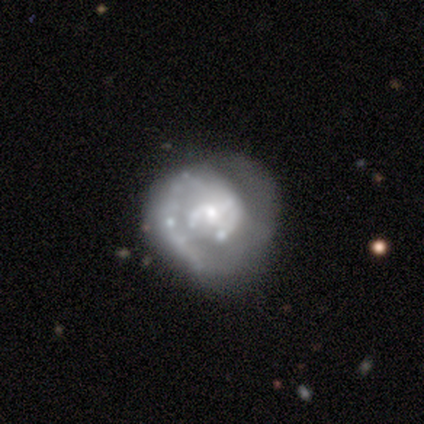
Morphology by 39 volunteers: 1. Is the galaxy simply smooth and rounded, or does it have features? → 87% featured or disk, 8% smooth, 5% star or artifact.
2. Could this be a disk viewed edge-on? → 82% no, 18% yes.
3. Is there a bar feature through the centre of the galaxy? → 50% no, 32% weak, 18% strong.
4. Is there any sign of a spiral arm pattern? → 82% yes, 18% no.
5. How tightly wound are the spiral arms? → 43% medium, 39% tight, 17% loose.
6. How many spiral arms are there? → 43% 1, 30% 2, 26% can't tell, 0% 3, 0% 4, 0% more than 4.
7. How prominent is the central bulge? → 57% small, 39% moderate, 4% large, 0% dominant, 0% none.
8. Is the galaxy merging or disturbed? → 59% none, 19% major disturbance, 14% minor disturbance, 8% merger.